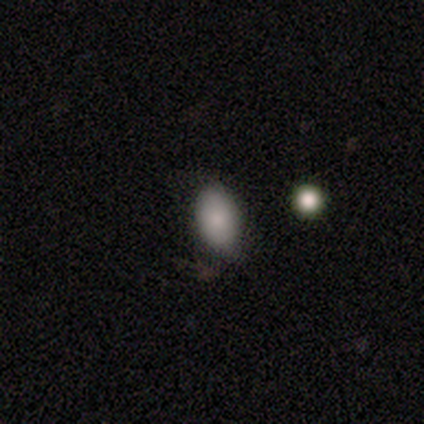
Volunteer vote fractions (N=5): Smooth or featured?
  - smooth: 100% *
  - featured or disk: 0%
  - star or artifact: 0%
How rounded?
  - in between: 100% *
  - round: 0%
  - cigar-shaped: 0%
Merging?
  - none: 100% *
  - minor disturbance: 0%
  - major disturbance: 0%
  - merger: 0%